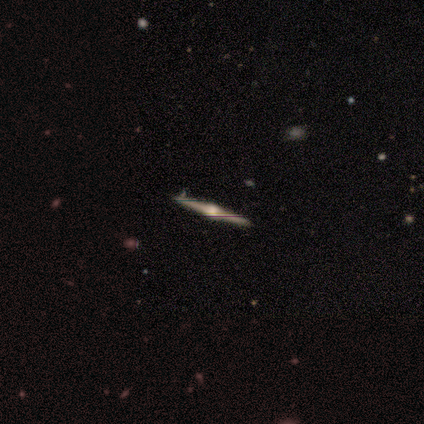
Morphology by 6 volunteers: Volunteers were most divided on "edge-on bulge": rounded: 60%, boxy: 40%, none: 0%. More confident: edge-on disk — yes (100%); smooth or featured — featured or disk (83%); merging — none (83%).